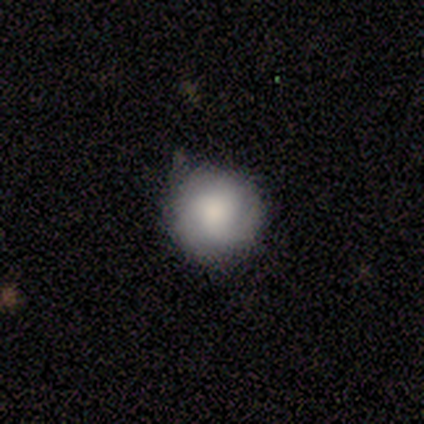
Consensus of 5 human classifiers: smooth-or-featured: smooth: 80% | featured or disk: 20% | star or artifact: 0%
  how-rounded: round: 100% | in between: 0% | cigar-shaped: 0%
  merging: none: 80% | minor disturbance: 20% | major disturbance: 0% | merger: 0%